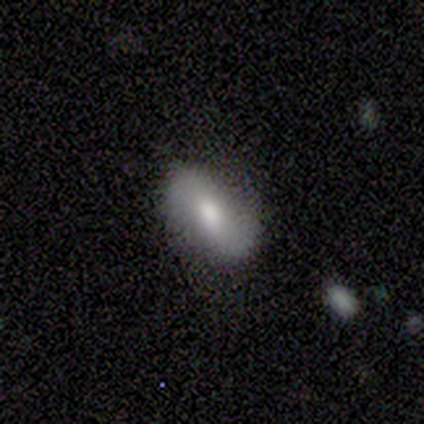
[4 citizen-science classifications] smooth-or-featured: smooth: 75% | featured or disk: 25% | star or artifact: 0%
  how-rounded: in between: 67% | cigar-shaped: 33% | round: 0%
  merging: none: 50% (tied) | minor disturbance: 50% (tied) | major disturbance: 0% | merger: 0%